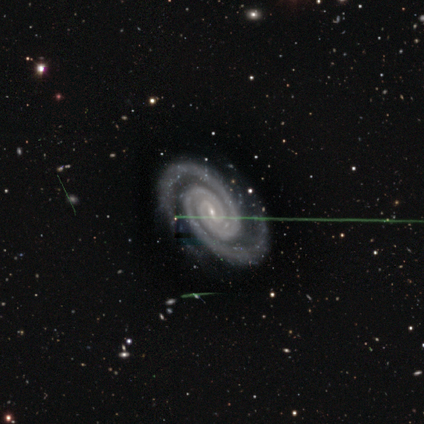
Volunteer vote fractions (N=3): Overall: featured or disk (100%). Edge-on disk: no (100%). Bar: strong (33%, tied with weak and no). Spiral arms: yes (100%). Spiral arm count: 2 (67%; more than 4 33%). Spiral winding: medium (67%; tight 33%). Bulge size: small (100%). Merging: none (100%).